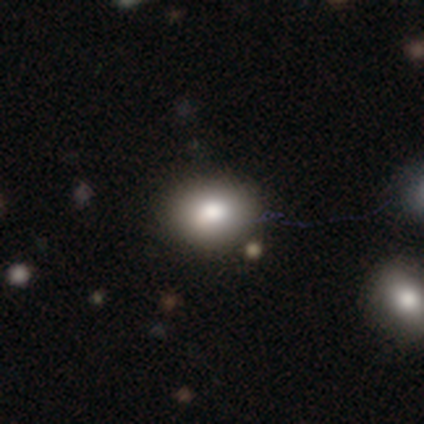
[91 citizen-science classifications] Volunteers were most divided on "how rounded": in between: 62%, round: 37%, cigar-shaped: 1%. More confident: smooth or featured — smooth (84%); merging — none (77%).